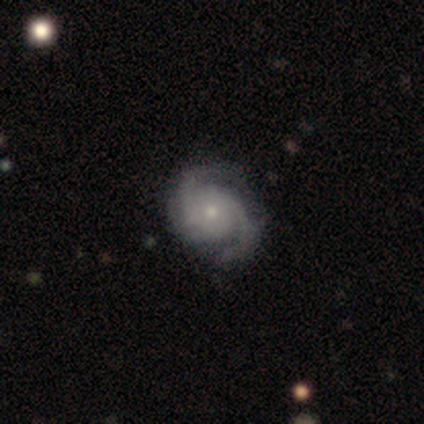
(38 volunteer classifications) Morphology: type=featured or disk (84%); edge-on=no (100%); bar=no (88%); spiral arms=yes (100%); winding=medium (53%); arm count=2 (88%); bulge=small (66%); merging=none (47%).